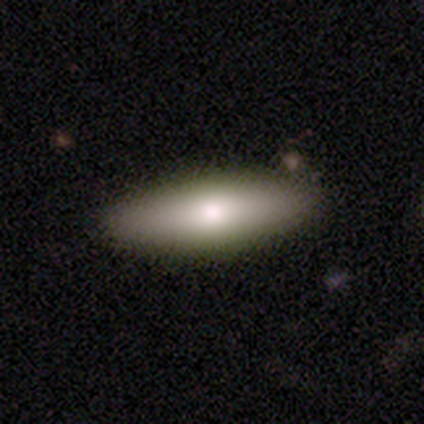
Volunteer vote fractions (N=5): Smooth or featured? 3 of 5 (60%) said smooth. How rounded? 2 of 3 (67%) said in between. Merging? 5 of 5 (100%) said none.